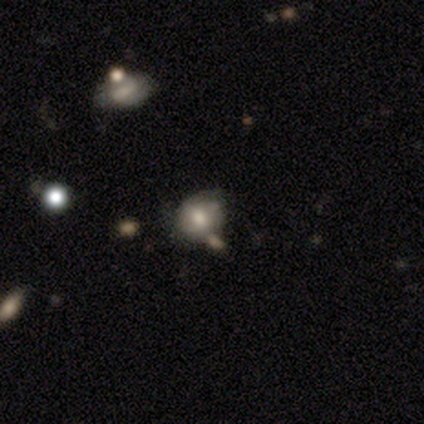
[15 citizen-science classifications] A smooth galaxy with no disk features (80%) that is round (83%).

Vote fractions:
- Smooth or featured? smooth: 80% / featured or disk: 13% / star or artifact: 7%
- How rounded? round: 83% / in between: 17% / cigar-shaped: 0%
- Merging? none: 64% / minor disturbance: 21% / major disturbance: 7% / merger: 7%